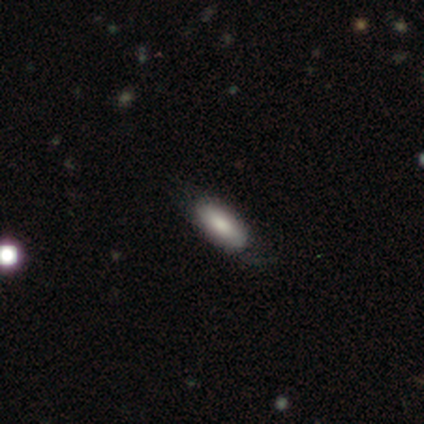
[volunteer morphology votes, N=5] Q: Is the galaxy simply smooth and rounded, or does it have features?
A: featured or disk — 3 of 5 (60%).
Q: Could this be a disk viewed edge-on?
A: yes — 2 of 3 (67%).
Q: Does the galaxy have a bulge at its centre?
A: rounded — 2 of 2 (100%).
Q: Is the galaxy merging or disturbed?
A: none — 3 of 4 (75%).